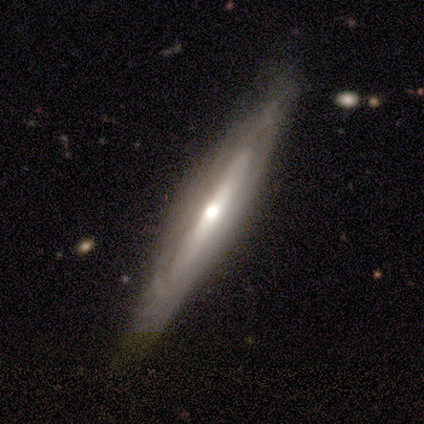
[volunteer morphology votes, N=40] smooth-or-featured: featured or disk: 72% | smooth: 28% | star or artifact: 0%
  disk-edge-on: yes: 62% | no: 38%
    edge-on-bulge: rounded: 78% | none: 22% | boxy: 0%
  merging: none: 80% | minor disturbance: 18% | major disturbance: 2% | merger: 0%